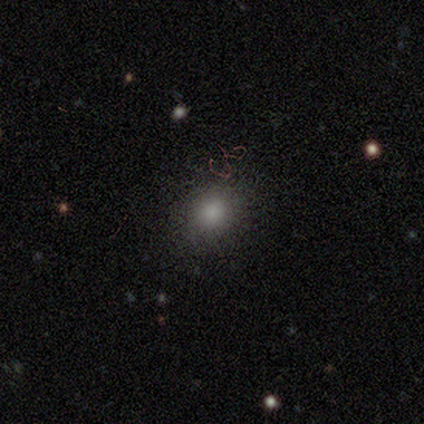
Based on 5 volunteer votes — Volunteers were most divided on "how rounded": in between: 60%, round: 40%, cigar-shaped: 0%. More confident: smooth or featured — smooth (100%); merging — none (100%).